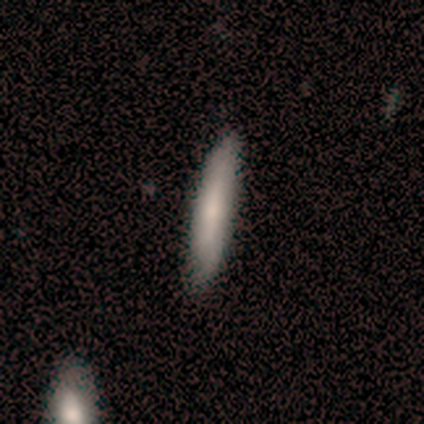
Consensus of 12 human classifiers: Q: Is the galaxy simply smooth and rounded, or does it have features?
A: smooth — 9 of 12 (75%).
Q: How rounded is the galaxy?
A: cigar-shaped — 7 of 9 (78%).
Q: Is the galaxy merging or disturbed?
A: none — 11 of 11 (100%).